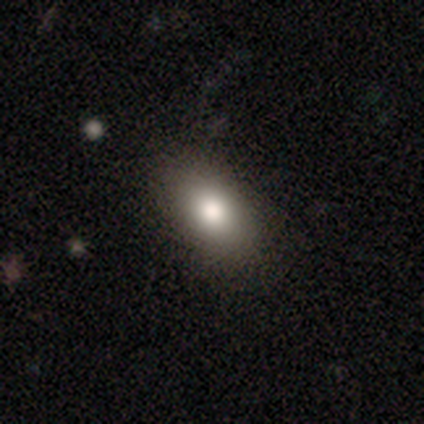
smooth-or-featured: smooth: 84% | star or artifact: 10% | featured or disk: 7%
  how-rounded: in between: 90% | round: 8% | cigar-shaped: 3%
  merging: none: 90% | minor disturbance: 10% | major disturbance: 0% | merger: 0%